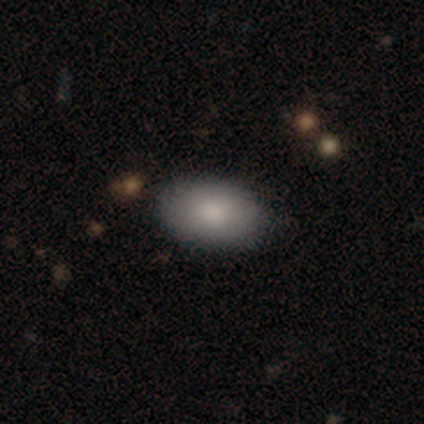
Smooth or featured? 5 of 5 (100%) said smooth. How rounded? 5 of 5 (100%) said in between. Merging? 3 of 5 (60%) said none.